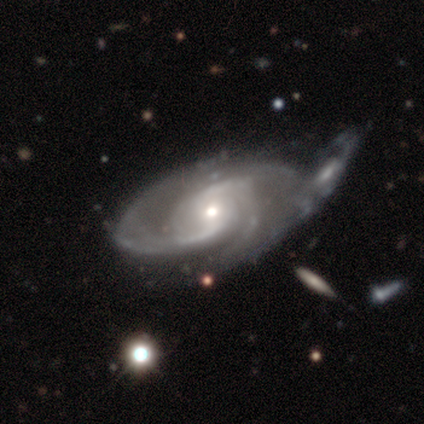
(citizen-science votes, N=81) This appears to be a featured or disk galaxy (95%) with no bar (52%), 2 (49%) medium (47%) spiral arms (100%) and a moderate central bulge (60%). Merging: merger (38%).